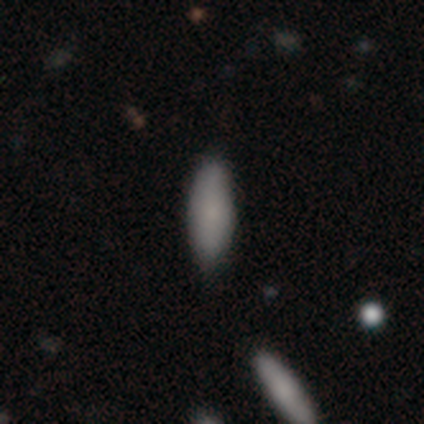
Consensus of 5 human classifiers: This is clearly a smooth galaxy (80%). How rounded: possibly in between (50%, tied with cigar-shaped). Merging: likely none (60%).